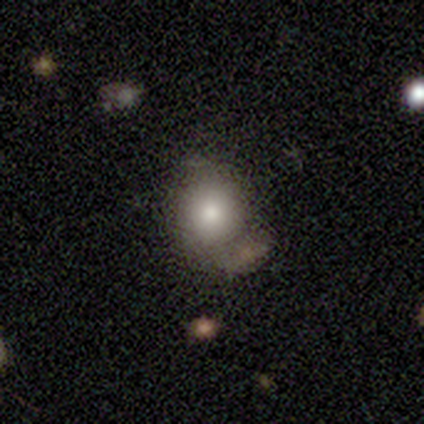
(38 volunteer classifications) Morphology: type=smooth (71%); roundness=round (74%); merging=none (33%).